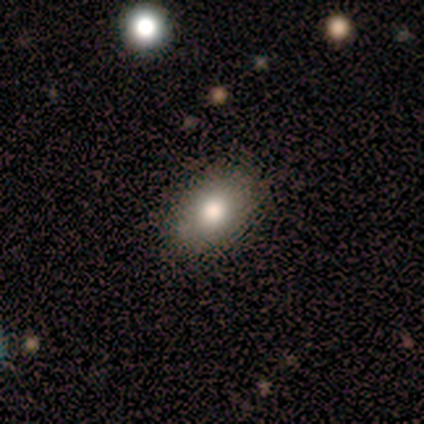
Smooth or featured? smooth (70%)
How rounded? in between (79%)
Merging? none (82%)